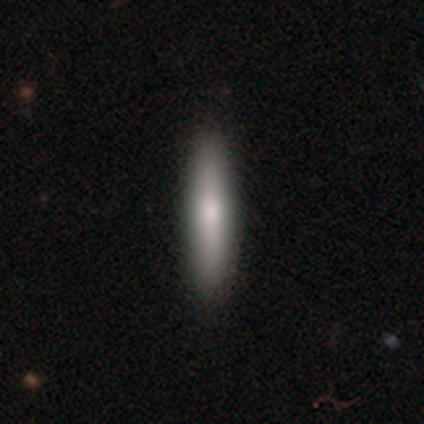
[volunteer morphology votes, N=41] Volunteers were most divided on "smooth or featured": smooth: 73%, featured or disk: 27%, star or artifact: 0%. More confident: how rounded — cigar-shaped (80%); merging — none (63%).